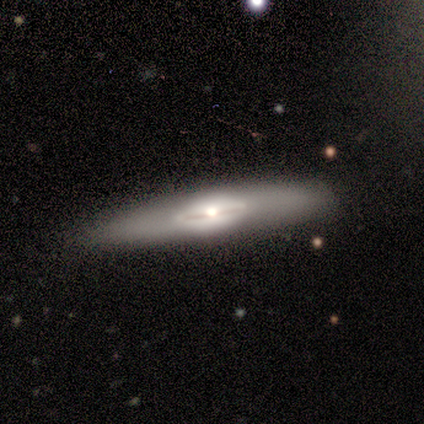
Smooth or featured? featured or disk (83%)
Edge-on disk? yes (70%)
Edge-on bulge? rounded (57%)
Merging? none (67%)